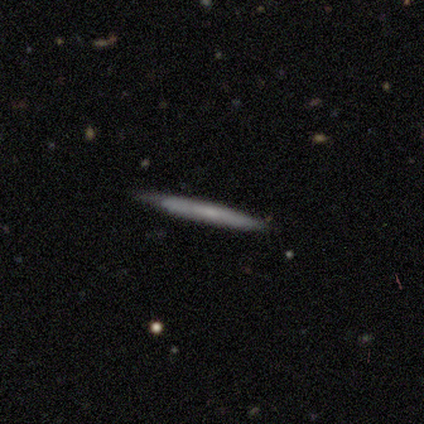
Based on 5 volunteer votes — Smooth or featured? 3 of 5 (60%) said smooth. How rounded? 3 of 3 (100%) said cigar-shaped. Merging? 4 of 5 (80%) said none.